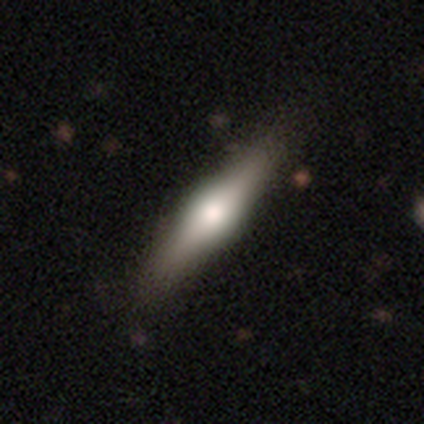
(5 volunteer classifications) A featured or disk galaxy (80%) viewed edge-on (100%) with a rounded central bulge (100%).

Vote fractions:
- Smooth or featured? featured or disk: 80% / smooth: 20% / star or artifact: 0%
- Edge-on disk? yes: 100% / no: 0%
- Edge-on bulge? rounded: 100% / boxy: 0% / none: 0%
- Merging? none: 100% / minor disturbance: 0% / major disturbance: 0% / merger: 0%